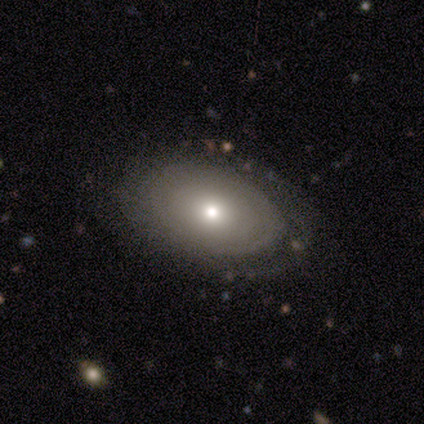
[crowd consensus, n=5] Smooth or featured?
  - featured or disk: 60% *
  - smooth: 40%
  - star or artifact: 0%
Edge-on disk?
  - no: 100% *
  - yes: 0%
Bar?
  - no: 100% *
  - strong: 0%
  - weak: 0%
Spiral arms?
  - no: 67% *
  - yes: 33%
Bulge size?
  - small: 100% *
  - dominant: 0%
  - large: 0%
  - moderate: 0%
  - none: 0%
Merging?
  - none: 60% *
  - minor disturbance: 20%
  - major disturbance: 20%
  - merger: 0%